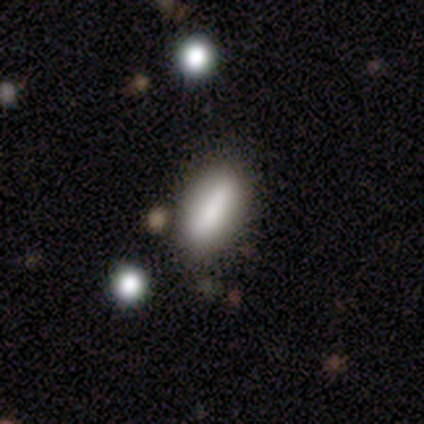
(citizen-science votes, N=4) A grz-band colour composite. It shows a smooth galaxy with no disk features (75%) that is in between round and cigar-shaped (67%). Merging: none (100%).